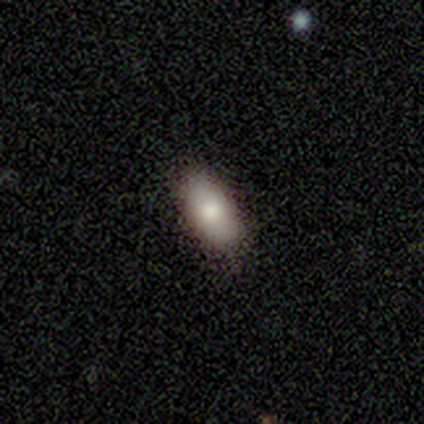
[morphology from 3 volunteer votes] smooth 100%, featured or disk 0%, star or artifact 0%. Down the decision tree: how rounded — in between (67%); merging — none (100%).